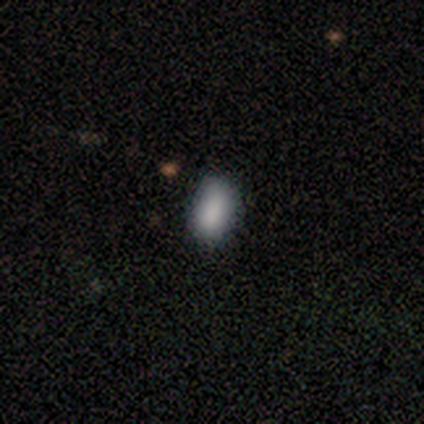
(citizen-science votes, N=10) smooth_or_featured: smooth (p=0.90) [alt: featured or disk p=0.10]
how_rounded: in between (p=1.00)
merging: none (p=0.70) [alt: minor disturbance p=0.20]